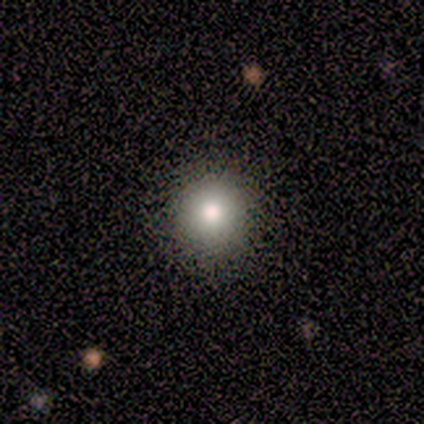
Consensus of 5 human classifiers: Smooth or featured? 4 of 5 (80%) said smooth. How rounded? 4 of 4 (100%) said round. Merging? 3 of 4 (75%) said none.